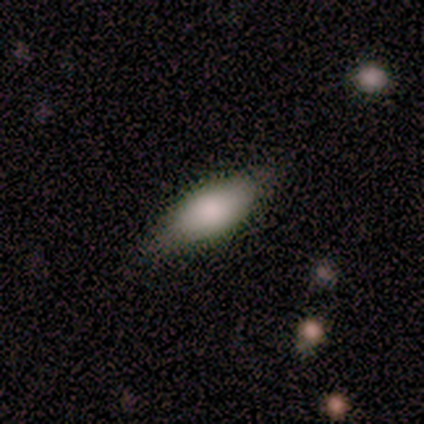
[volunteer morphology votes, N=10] Smooth or featured?
  - smooth: 80% *
  - featured or disk: 20%
  - star or artifact: 0%
How rounded?
  - in between: 100% *
  - round: 0%
  - cigar-shaped: 0%
Merging?
  - none: 70% *
  - minor disturbance: 20%
  - merger: 10%
  - major disturbance: 0%